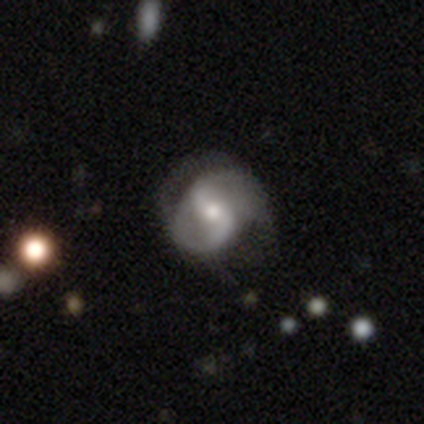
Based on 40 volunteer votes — Smooth or featured?
  - featured or disk: 85% *
  - smooth: 12%
  - star or artifact: 2%
Edge-on disk?
  - no: 100% *
  - yes: 0%
Bar?
  - weak: 50% *
  - strong: 26%
  - no: 24%
Spiral arms?
  - yes: 91% *
  - no: 9%
Spiral winding?
  - medium: 52% *
  - loose: 32%
  - tight: 16%
Spiral arm count?
  - 2: 90% *
  - 1: 10%
  - 3: 0%
  - 4: 0%
  - more than 4: 0%
  - can't tell: 0%
Bulge size?
  - moderate: 53% *
  - small: 41%
  - large: 3%
  - none: 3%
  - dominant: 0%
Merging?
  - none: 74% *
  - major disturbance: 15%
  - minor disturbance: 10%
  - merger: 0%